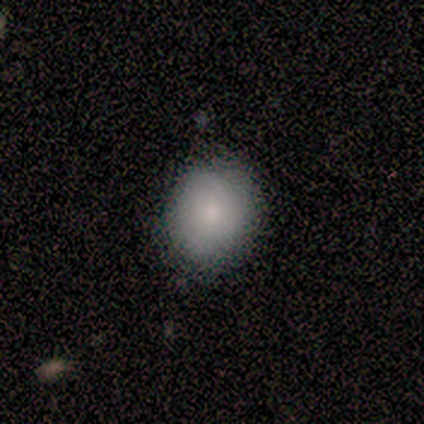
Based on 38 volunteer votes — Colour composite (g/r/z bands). It shows a smooth galaxy with no disk features (92%) that is round (63%). Merging: none (92%).